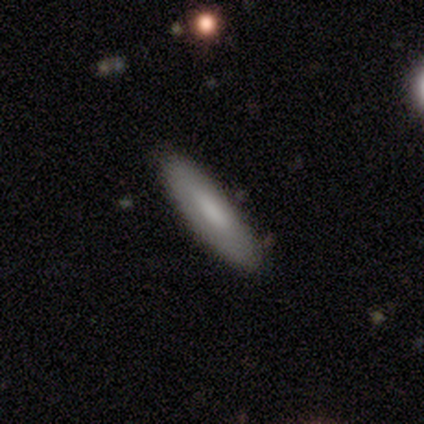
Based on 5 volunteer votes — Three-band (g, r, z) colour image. It shows a smooth galaxy with no disk features (80%) that is cigar-shaped (100%). Merging: none (80%).